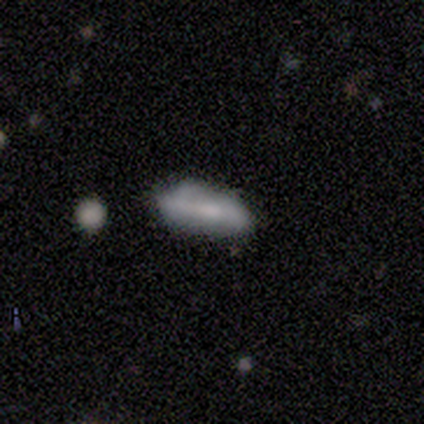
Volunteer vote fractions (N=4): smooth-or-featured: smooth: 75% | featured or disk: 25% | star or artifact: 0%
  how-rounded: in between: 100% | round: 0% | cigar-shaped: 0%
  merging: none: 100% | minor disturbance: 0% | major disturbance: 0% | merger: 0%